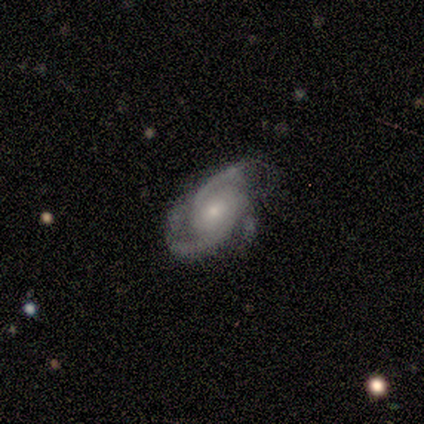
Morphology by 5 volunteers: Q: Smooth or featured?
A: featured or disk (100%)
Q: Edge-on disk?
A: no (100%)
Q: Bar?
A: no (80%); runner-up: weak (20%)
Q: Spiral arms?
A: yes (100%)
Q: Spiral winding?
A: tight (40%); tied with: loose (40%)
Q: Spiral arm count?
A: 3 (60%); runner-up: 2 (40%)
Q: Bulge size?
A: small (60%); runner-up: moderate (40%)
Q: Merging?
A: none (80%); runner-up: minor disturbance (20%)